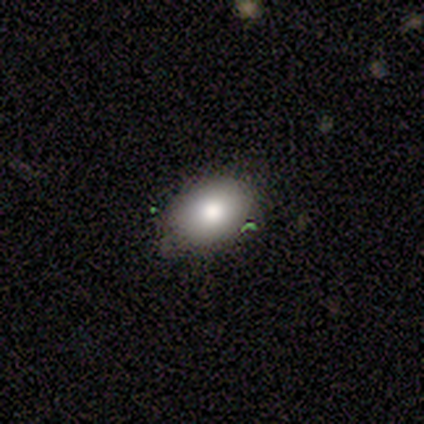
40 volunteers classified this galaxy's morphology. This appears to be a smooth galaxy with no disk features (72%) that is in between round and cigar-shaped (90%). Merging: none (75%).